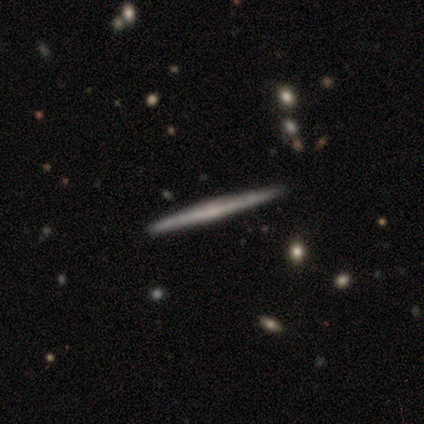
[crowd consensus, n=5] Smooth or featured: featured or disk — 60% (smooth — 40%)
Edge-on disk: yes — 100%
Edge-on bulge: none — 67% (rounded — 33%)
Merging: none — 100%